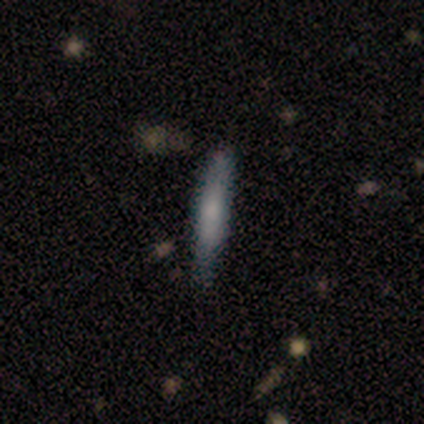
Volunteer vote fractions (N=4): Q: Smooth or featured?
A: featured or disk (75%); runner-up: smooth (25%)
Q: Edge-on disk?
A: yes (100%)
Q: Edge-on bulge?
A: rounded (67%); runner-up: none (33%)
Q: Merging?
A: none (75%); runner-up: minor disturbance (25%)